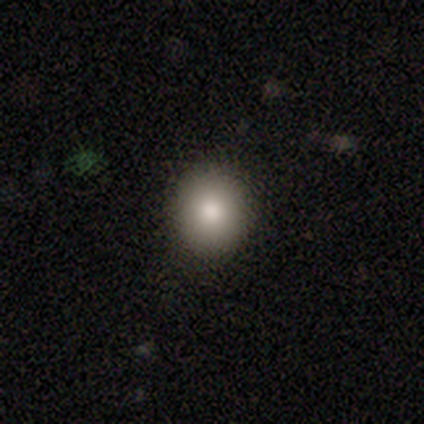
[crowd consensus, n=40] Smooth or featured: smooth — 90% (featured or disk — 5%)
How rounded: round — 89% (in between — 11%)
Merging: none — 95% (minor disturbance — 5%)